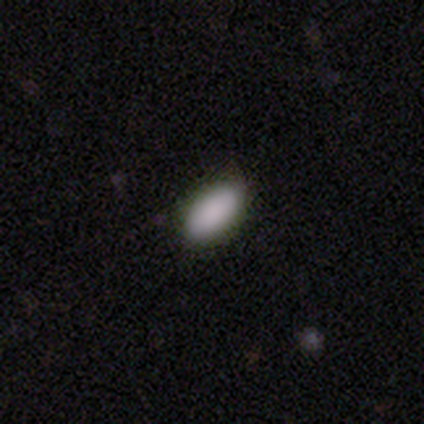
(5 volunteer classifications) Smooth or featured: smooth — 100%
How rounded: in between — 100%
Merging: none — 100%